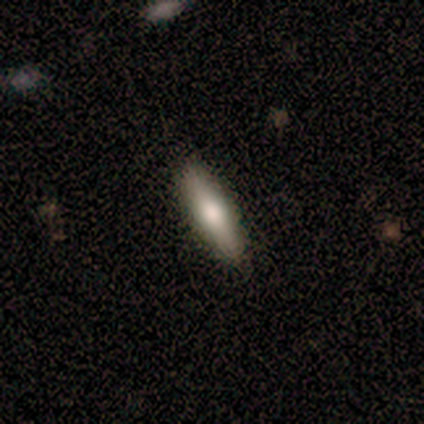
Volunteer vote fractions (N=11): smooth-or-featured: smooth: 73% | featured or disk: 18% | star or artifact: 9%
  how-rounded: cigar-shaped: 50% | in between: 38% | round: 12%
  merging: none: 100% | minor disturbance: 0% | major disturbance: 0% | merger: 0%